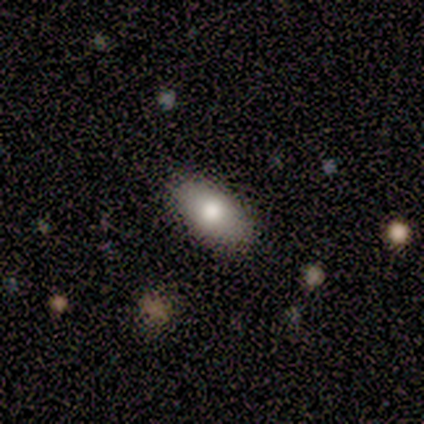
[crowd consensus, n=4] Morphology: type=smooth (50%); roundness=in between (100%); merging=none (100%).